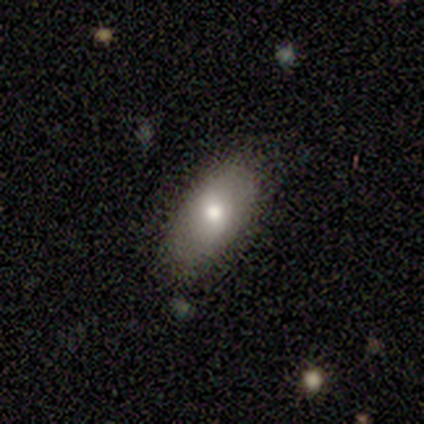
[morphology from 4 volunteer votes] smooth 75%, featured or disk 25%, star or artifact 0%. Down the decision tree: how rounded — in between (67%); merging — none (100%).